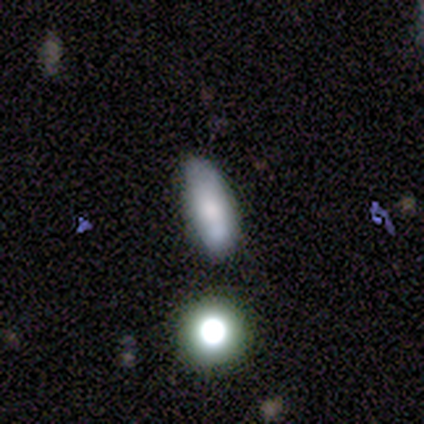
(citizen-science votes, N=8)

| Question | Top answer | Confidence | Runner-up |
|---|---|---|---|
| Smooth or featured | smooth | 50% | featured or disk (25%) |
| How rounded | in between | 75% | cigar-shaped (25%) |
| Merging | minor disturbance | 50% | merger (33%) |